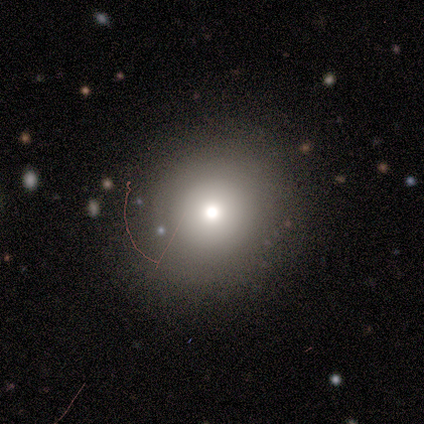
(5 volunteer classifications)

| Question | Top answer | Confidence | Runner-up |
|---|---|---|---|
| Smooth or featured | smooth | 100% | — |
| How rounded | round | 100% | — |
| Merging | none | 100% | — |